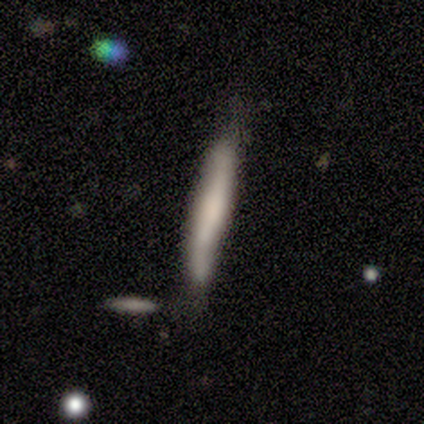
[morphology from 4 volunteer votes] Volunteers were most divided on "smooth or featured": smooth: 50%, featured or disk: 25%, star or artifact: 25%. More confident: how rounded — cigar-shaped (100%); merging — minor disturbance (67%).